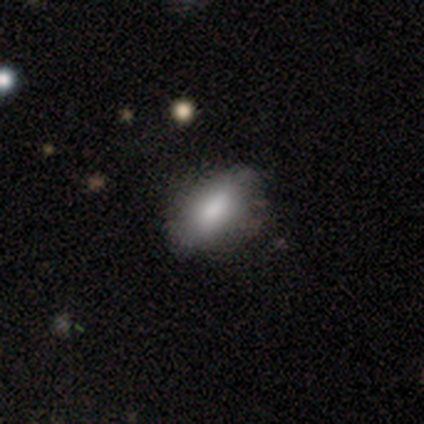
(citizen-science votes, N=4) Consensus on every question: smooth or featured — smooth (100%); how rounded — in between (100%); merging — none (100%).